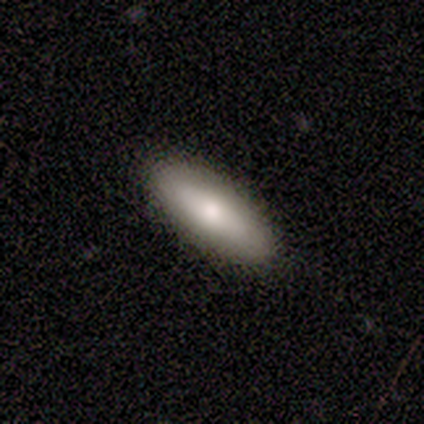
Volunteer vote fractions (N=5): Smooth or featured: smooth — 40% (tied with star or artifact — 40%)
How rounded: in between — 50% (tied with cigar-shaped — 50%)
Merging: none — 100%